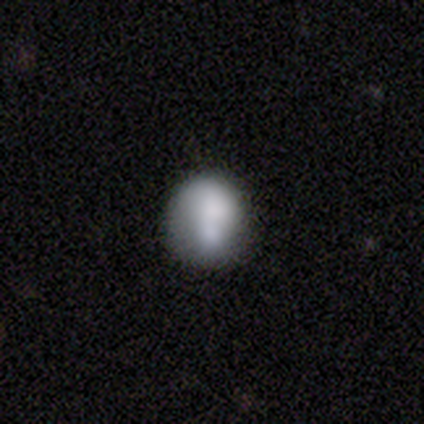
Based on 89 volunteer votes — A smooth galaxy with no disk features (73%) that is round (82%). Merging: none (52%).